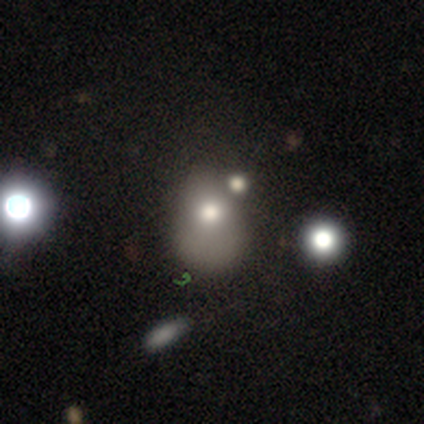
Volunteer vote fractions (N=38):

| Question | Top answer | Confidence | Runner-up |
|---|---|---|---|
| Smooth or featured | smooth | 50% | star or artifact (26%) |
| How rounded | in between | 58% | round (42%) |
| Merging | merger | 32% | none (29%) |